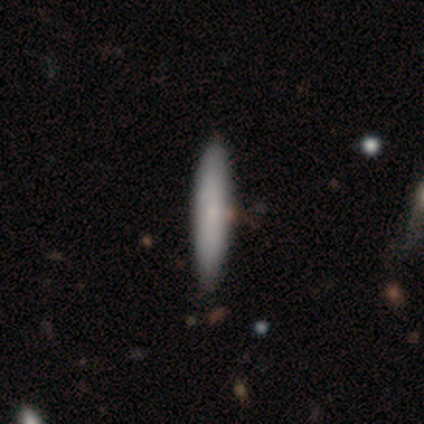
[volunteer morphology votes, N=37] A smooth galaxy with no disk features (76%) that is cigar-shaped (86%). Merging: none (64%).